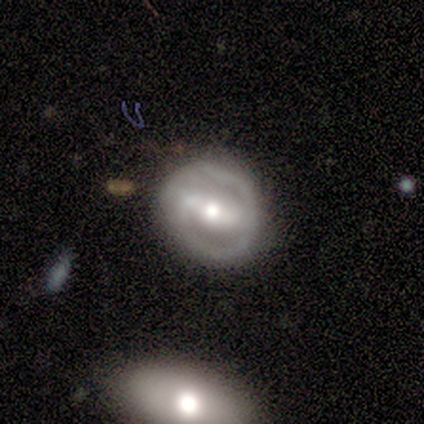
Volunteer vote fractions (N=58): Smooth or featured? featured or disk (81%)
Edge-on disk? no (100%)
Bar? strong (74%)
Spiral arms? yes (60%)
Spiral winding? tight (54%)
Spiral arm count? 2 (82%)
Bulge size? moderate (72%)
Merging? none (67%)